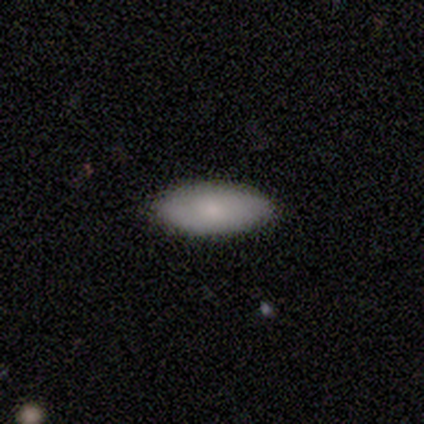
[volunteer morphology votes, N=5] type=smooth (80%); roundness=in between (100%); merging=none (100%).